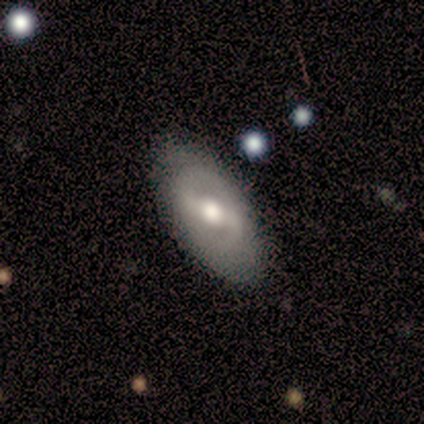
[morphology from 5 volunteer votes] smooth_or_featured: featured or disk (p=0.80) [alt: smooth p=0.20]
disk_edge_on: no (p=1.00)
bar: weak (p=1.00)
has_spiral_arms: yes (p=0.75) [alt: no p=0.25]
spiral_winding: medium (p=0.67) [alt: loose p=0.33]
spiral_arm_count: 2 (p=1.00)
bulge_size: moderate (p=0.75) [alt: small p=0.25]
merging: none (p=0.60) [alt: minor disturbance p=0.40]